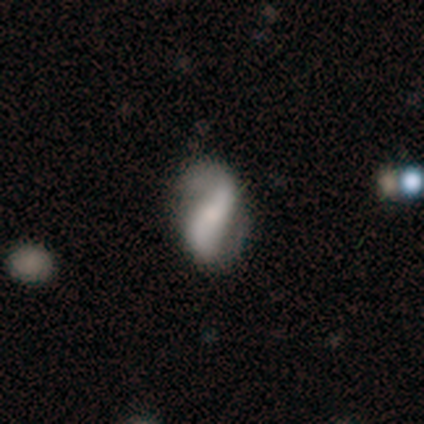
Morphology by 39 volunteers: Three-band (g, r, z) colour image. It shows a featured or disk galaxy (74%) with no bar (41%), 2 (96%) loose (80%) spiral arms (93%) and a small central bulge (37%). Merging: none (38%).